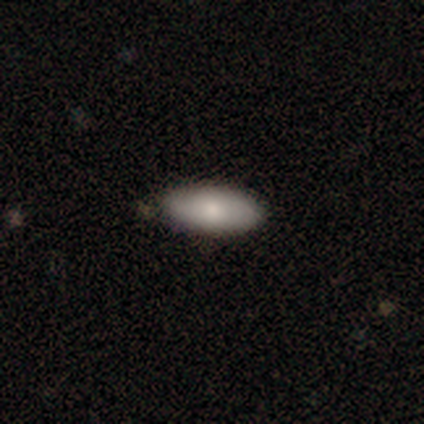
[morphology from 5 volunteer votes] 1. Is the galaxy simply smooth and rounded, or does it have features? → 60% smooth, 40% featured or disk, 0% star or artifact.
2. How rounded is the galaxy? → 100% in between, 0% round, 0% cigar-shaped.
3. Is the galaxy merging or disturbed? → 100% none, 0% minor disturbance, 0% major disturbance, 0% merger.